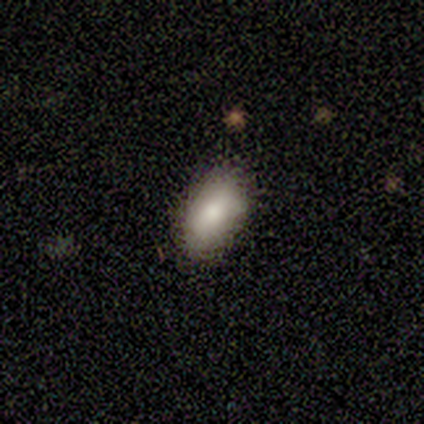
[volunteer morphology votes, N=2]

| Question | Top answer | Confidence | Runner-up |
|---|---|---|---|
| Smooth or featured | smooth | 100% | — |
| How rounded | in between | 100% | — |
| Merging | none | 100% | — |